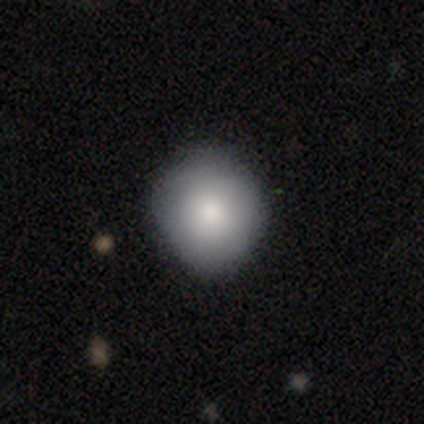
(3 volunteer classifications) Smooth or featured? smooth (100%)
How rounded? round (100%)
Merging? none (67%)